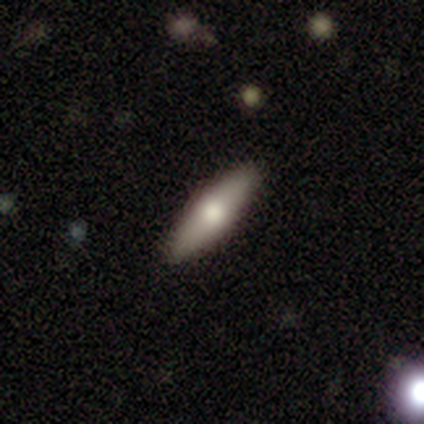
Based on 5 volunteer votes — Overall: featured or disk (60%; smooth 40%). Edge-on disk: yes (100%). Edge-on bulge: rounded (100%). Merging: none (100%).